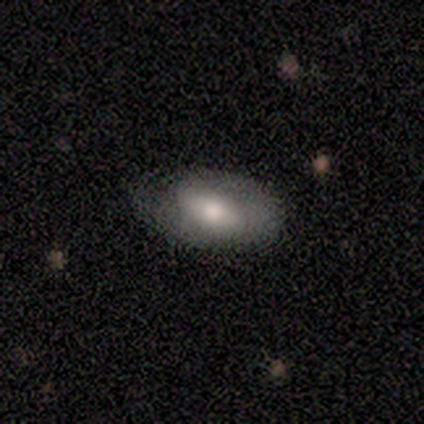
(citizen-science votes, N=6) A smooth galaxy with no disk features (50%, tied with featured or disk) that is in between round and cigar-shaped (100%). Merging: none (83%).